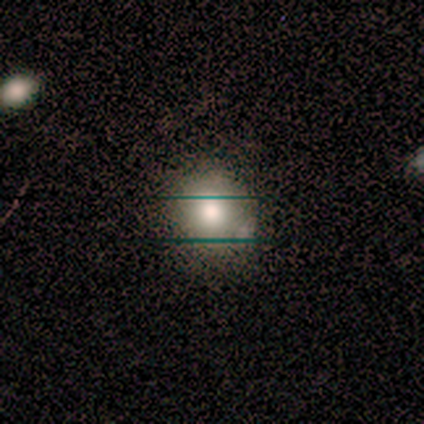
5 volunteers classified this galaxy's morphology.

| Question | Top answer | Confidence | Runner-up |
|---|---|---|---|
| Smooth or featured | smooth | 60% | featured or disk (40%) |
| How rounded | round | 67% | in between (33%) |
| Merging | none | 60% | minor disturbance (20%) |